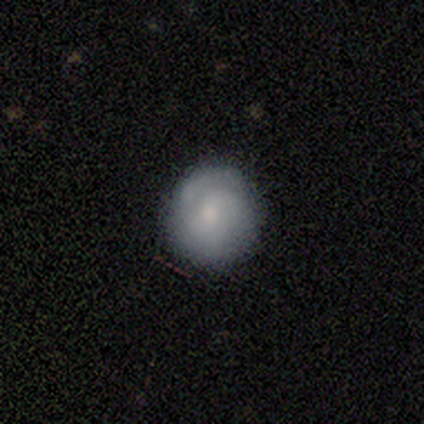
smooth 40% (tied), featured or disk 40% (tied), star or artifact 20%. Down the decision tree: how rounded — round (100%); merging — none (75%).